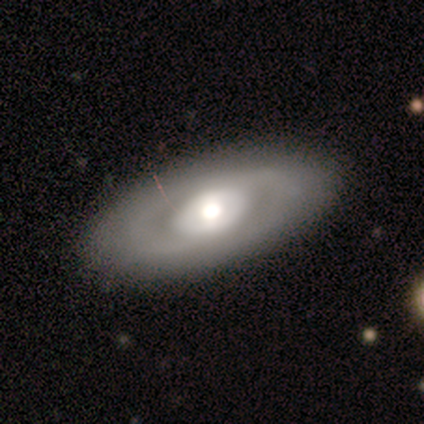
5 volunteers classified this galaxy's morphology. A featured or disk galaxy (80%) with no bar (100%), no spiral arms (75%) and a large central bulge (50%, tied with moderate).

Vote fractions:
- Smooth or featured? featured or disk: 80% / smooth: 20% / star or artifact: 0%
- Edge-on disk? no: 100% / yes: 0%
- Bar? no: 100% / strong: 0% / weak: 0%
- Spiral arms? no: 75% / yes: 25%
- Bulge size? large: 50% (tied) / moderate: 50% (tied) / dominant: 0% / small: 0% / none: 0%
- Merging? none: 100% / minor disturbance: 0% / major disturbance: 0% / merger: 0%